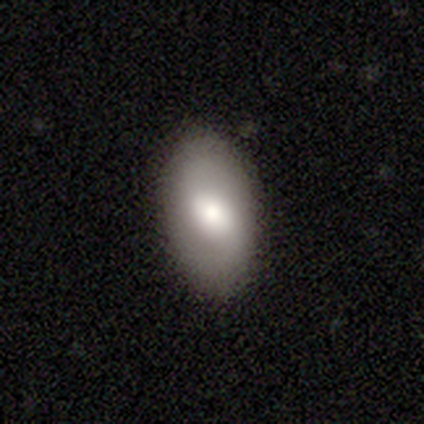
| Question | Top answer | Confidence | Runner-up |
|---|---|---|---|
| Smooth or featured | smooth | 68% | featured or disk (30%) |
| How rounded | in between | 93% | cigar-shaped (7%) |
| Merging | none | 90% | minor disturbance (10%) |